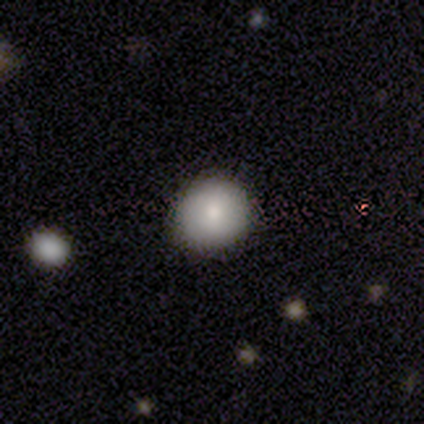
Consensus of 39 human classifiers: smooth 82%, star or artifact 13%, featured or disk 5%. Down the decision tree: how rounded — round (91%); merging — none (94%).